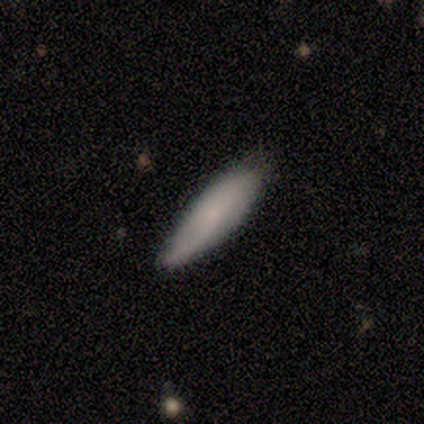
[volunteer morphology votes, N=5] Smooth or featured?
  - featured or disk: 60% *
  - smooth: 20%
  - star or artifact: 20%
Edge-on disk?
  - no: 67% *
  - yes: 33%
Bar?
  - no: 100% *
  - strong: 0%
  - weak: 0%
Spiral arms?
  - yes: 50% * (tied)
  - no: 50% * (tied)
Spiral winding?
  - loose: 100% *
  - tight: 0%
  - medium: 0%
Spiral arm count?
  - 2: 100% *
  - 1: 0%
  - 3: 0%
  - 4: 0%
  - more than 4: 0%
  - can't tell: 0%
Bulge size?
  - small: 100% *
  - dominant: 0%
  - large: 0%
  - moderate: 0%
  - none: 0%
Merging?
  - none: 50% * (tied)
  - minor disturbance: 50% * (tied)
  - major disturbance: 0%
  - merger: 0%